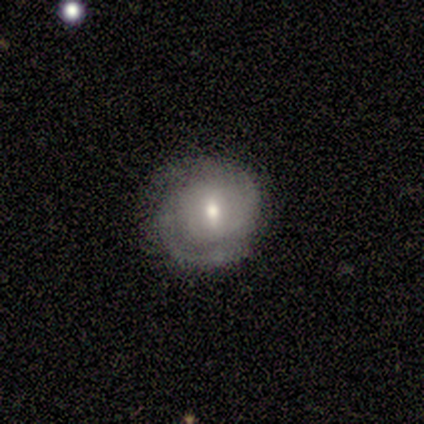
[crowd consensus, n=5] Q: Smooth or featured?
A: featured or disk (100%)
Q: Edge-on disk?
A: no (100%)
Q: Bar?
A: weak (60%); runner-up: strong (20%)
Q: Spiral arms?
A: yes (80%); runner-up: no (20%)
Q: Spiral winding?
A: tight (75%); runner-up: medium (25%)
Q: Spiral arm count?
A: 2 (50%); runner-up: more than 4 (25%)
Q: Bulge size?
A: moderate (80%); runner-up: small (20%)
Q: Merging?
A: none (60%); runner-up: minor disturbance (20%)